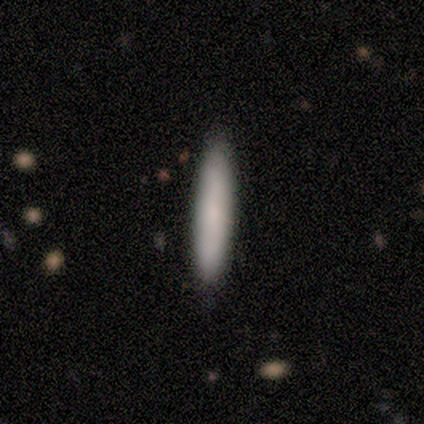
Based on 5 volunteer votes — A smooth galaxy with no disk features (100%) that is cigar-shaped (100%). Merging: none (100%).